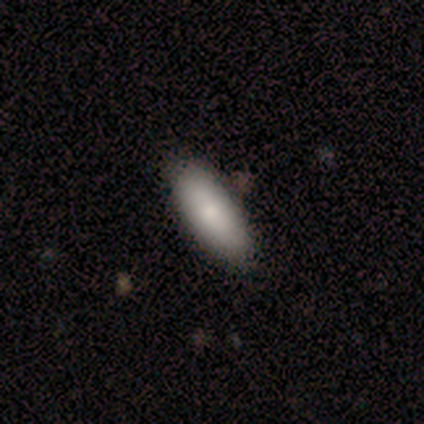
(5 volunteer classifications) Overall: smooth (100%). How rounded: in between (100%). Merging: none (80%).